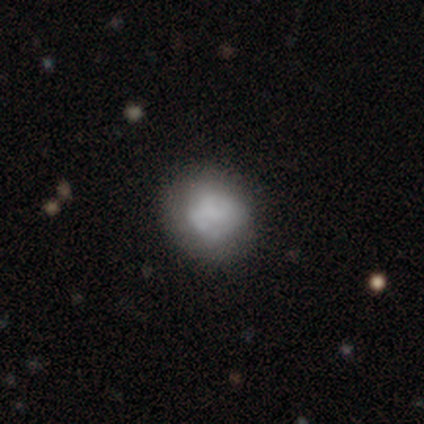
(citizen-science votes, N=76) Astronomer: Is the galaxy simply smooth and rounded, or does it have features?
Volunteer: smooth — 47%, tied with featured or disk at 47%.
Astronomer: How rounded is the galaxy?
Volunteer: round — 81%.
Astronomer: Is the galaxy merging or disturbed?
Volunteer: none — 42%.